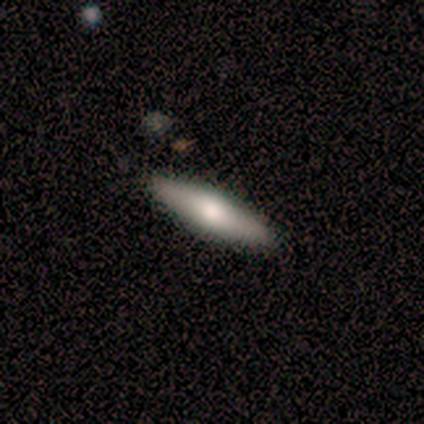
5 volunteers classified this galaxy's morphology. Overall: smooth (40%, tied with star or artifact). How rounded: cigar-shaped (100%). Merging: none (100%).